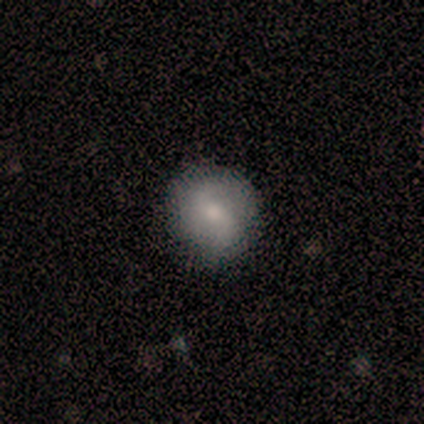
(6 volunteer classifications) This is possibly a featured or disk galaxy (50%). It is clearly not viewed edge-on (100%). Bar: clearly weak (100%). Spiral arm pattern: likely yes (67%). Spiral arm count: clearly 2 (100%). Spiral winding: clearly loose (100%). Central bulge: likely small (67%). Merging: clearly none (80%).